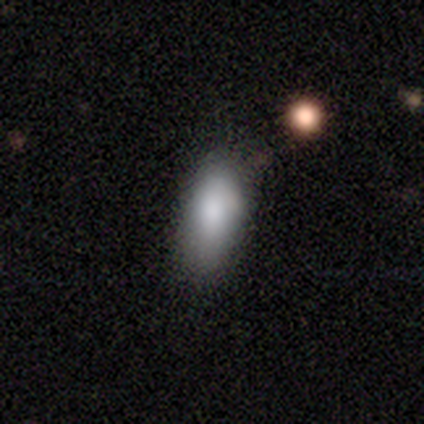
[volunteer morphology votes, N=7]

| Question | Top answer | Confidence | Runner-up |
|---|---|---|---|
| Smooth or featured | smooth | 100% | — |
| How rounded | in between | 100% | — |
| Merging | minor disturbance | 71% | none (29%) |